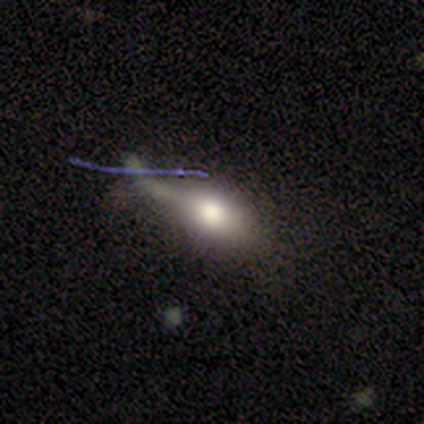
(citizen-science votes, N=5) A featured or disk galaxy (60%) with no bar (100%), no spiral arms (67%) and a moderate central bulge (67%). Merging: major disturbance (60%).